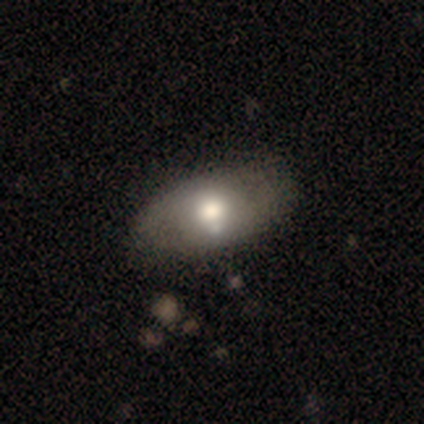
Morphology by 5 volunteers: A smooth galaxy with no disk features (80%) that is in between round and cigar-shaped (100%). Merging: none (60%).